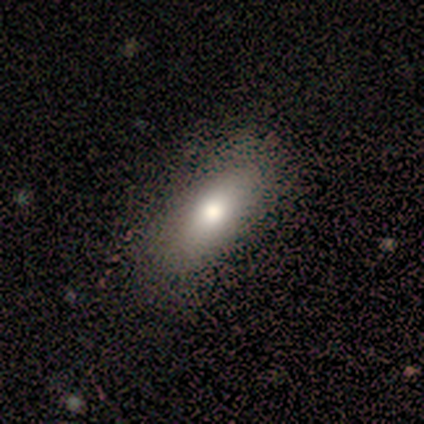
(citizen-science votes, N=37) This is likely a smooth galaxy (76%). How rounded: clearly in between (89%). Merging: likely none (71%).